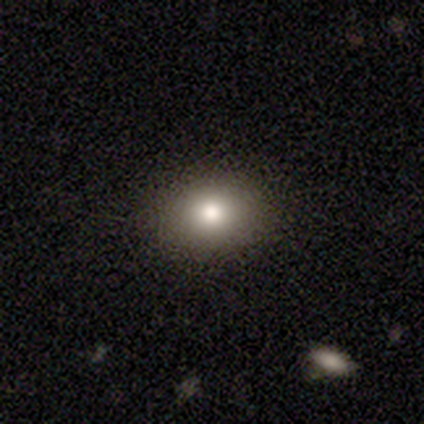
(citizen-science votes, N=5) This appears to be a smooth galaxy with no disk features (100%) that is round (80%). Merging: none (100%).